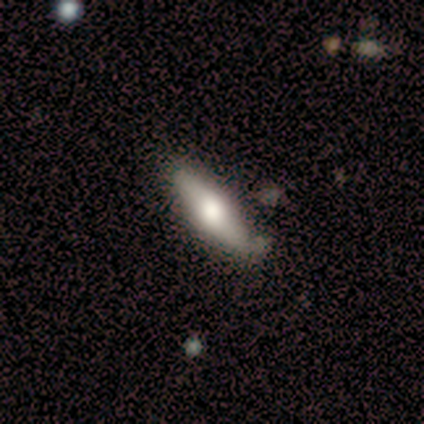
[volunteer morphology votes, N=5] featured or disk 60%, smooth 40%, star or artifact 0%. Down the decision tree: edge-on disk — yes (100%); edge-on bulge — rounded (100%); merging — minor disturbance (60%).